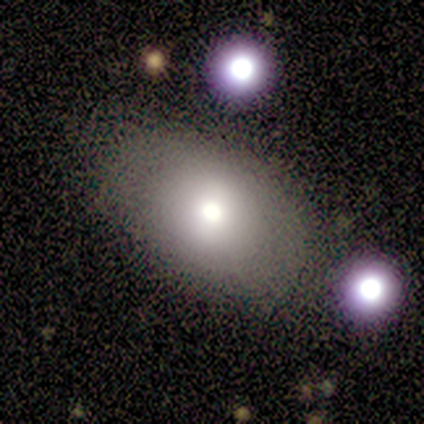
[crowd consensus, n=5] This is clearly a smooth galaxy (100%). How rounded: clearly in between (100%). Merging: likely none (60%).